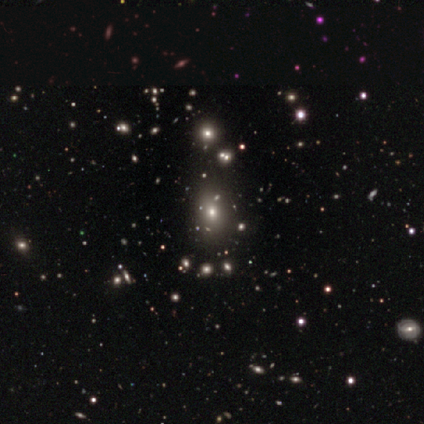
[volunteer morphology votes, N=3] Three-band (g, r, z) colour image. It shows a smooth galaxy with no disk features (67%) that is round (100%). Merging: none (50%, tied with merger).